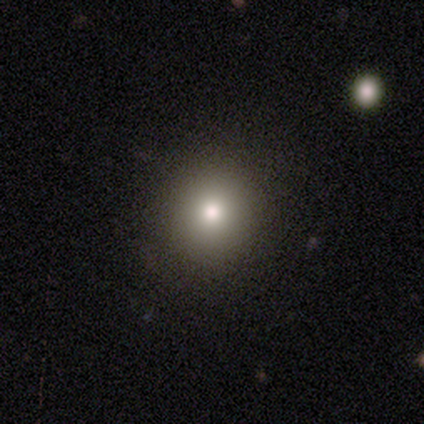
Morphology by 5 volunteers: This appears to be a smooth galaxy with no disk features (100%) that is round (100%). Merging: none (100%).